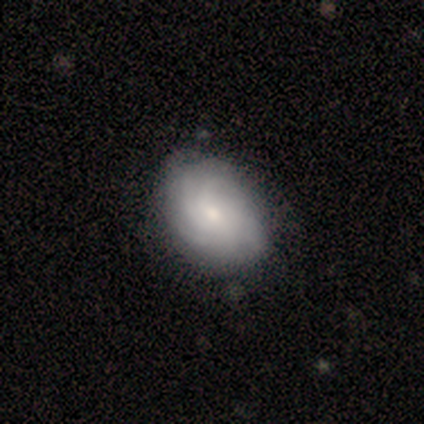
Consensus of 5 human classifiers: A featured or disk galaxy (60%) with no bar (100%), more than 4 (67%) tight (67%) spiral arms (100%) and a small central bulge (100%).

Vote fractions:
- Smooth or featured? featured or disk: 60% / smooth: 40% / star or artifact: 0%
- Edge-on disk? no: 100% / yes: 0%
- Bar? no: 100% / strong: 0% / weak: 0%
- Spiral arms? yes: 100% / no: 0%
- Spiral winding? tight: 67% / medium: 33% / loose: 0%
- Spiral arm count? more than 4: 67% / can't tell: 33% / 1: 0% / 2: 0% / 3: 0% / 4: 0%
- Bulge size? small: 100% / dominant: 0% / large: 0% / moderate: 0% / none: 0%
- Merging? none: 80% / minor disturbance: 20% / major disturbance: 0% / merger: 0%